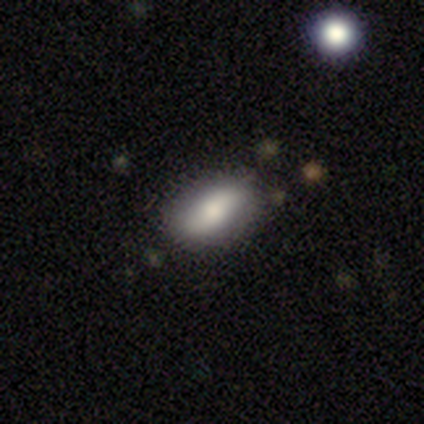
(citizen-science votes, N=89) Smooth or featured? 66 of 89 (74%) said smooth. How rounded? 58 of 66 (88%) said in between. Merging? 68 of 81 (84%) said none.